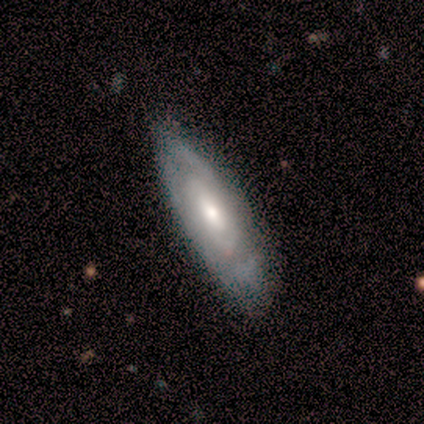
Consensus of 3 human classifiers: Morphology: type=featured or disk (67%); edge-on=no (100%); bar=no (100%); spiral arms=yes (100%); winding=tight (50%, tied with loose); arm count=can't tell (100%); bulge=moderate (50%, tied with small); merging=none (67%).